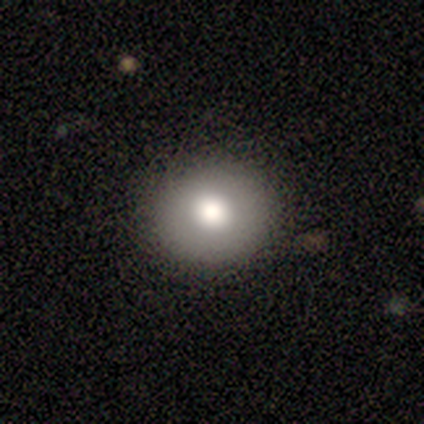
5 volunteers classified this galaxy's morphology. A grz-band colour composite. It shows a smooth galaxy with no disk features (60%) that is round (100%). Merging: none (100%).